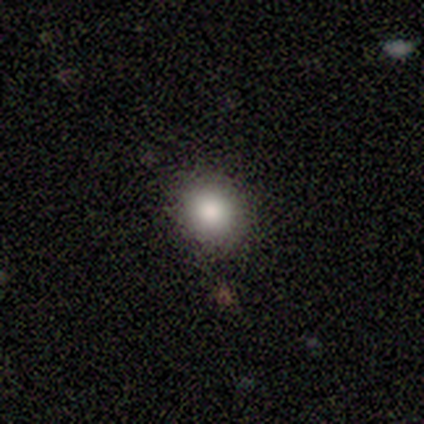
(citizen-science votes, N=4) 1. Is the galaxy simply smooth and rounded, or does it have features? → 100% smooth, 0% featured or disk, 0% star or artifact.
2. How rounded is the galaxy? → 100% round, 0% in between, 0% cigar-shaped.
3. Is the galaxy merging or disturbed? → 75% none, 25% merger, 0% minor disturbance, 0% major disturbance.